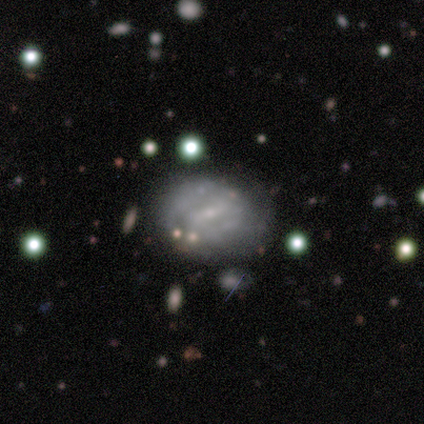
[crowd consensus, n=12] A featured or disk galaxy (75%) with a weak bar (62%), 2 (50%, tied with can't tell) tight (50%) spiral arms (50%, tied with no) and a small central bulge (88%). Merging: none (45%, tied with minor disturbance).